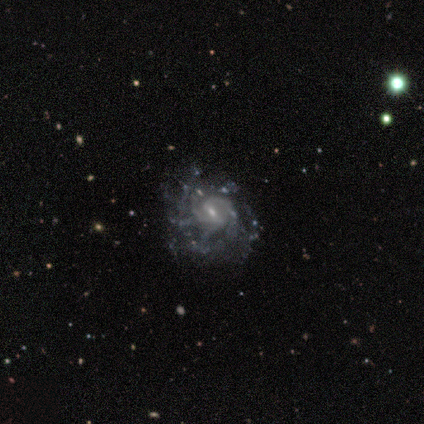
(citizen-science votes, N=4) Q: Smooth or featured?
A: featured or disk (100%)
Q: Edge-on disk?
A: no (100%)
Q: Bar?
A: weak (100%)
Q: Spiral arms?
A: yes (100%)
Q: Spiral winding?
A: medium (75%); runner-up: tight (25%)
Q: Spiral arm count?
A: 2 (50%); tied with: 3 (50%)
Q: Bulge size?
A: moderate (75%); runner-up: small (25%)
Q: Merging?
A: none (75%); runner-up: major disturbance (25%)